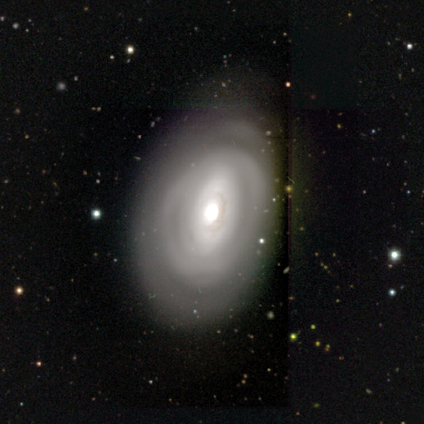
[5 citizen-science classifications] Morphology: type=featured or disk (60%); edge-on=no (100%); bar=no (100%); spiral arms=no (67%); bulge=dominant (33%, tied with large and none); merging=none (80%).